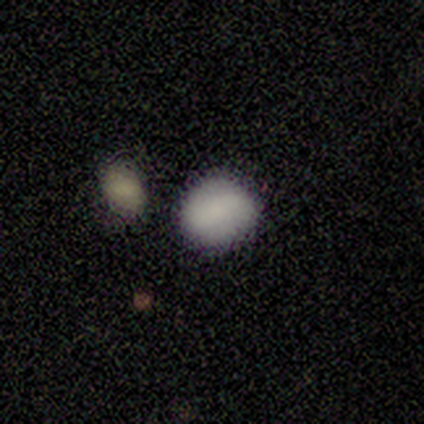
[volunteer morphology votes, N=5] Smooth or featured? smooth (100%)
How rounded? in between (80%)
Merging? none (40%, tied with merger)